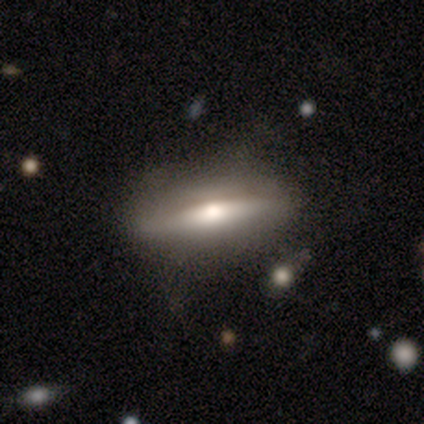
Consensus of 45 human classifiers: Q: Smooth or featured?
A: smooth (53%); runner-up: featured or disk (44%)
Q: How rounded?
A: cigar-shaped (83%); runner-up: in between (17%)
Q: Merging?
A: none (82%); runner-up: minor disturbance (16%)